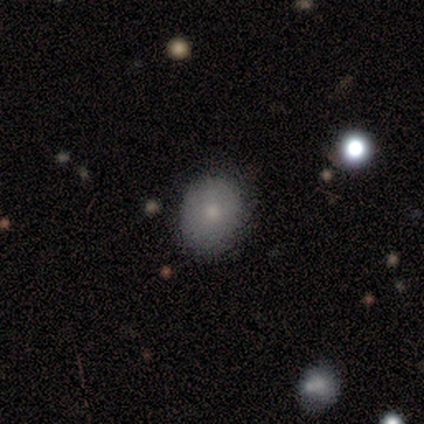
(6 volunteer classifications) smooth_or_featured: smooth (p=1.00)
how_rounded: round (p=0.50) [tied with: in between p=0.50]
merging: none (p=1.00)